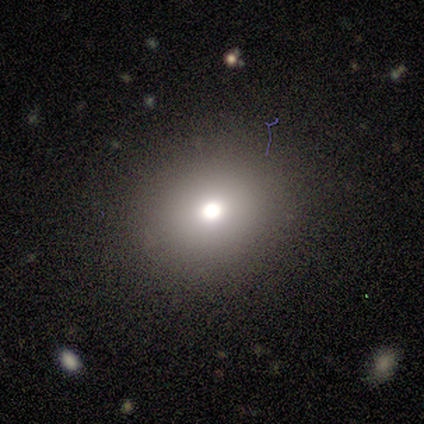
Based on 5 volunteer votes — Volunteers were most divided on "smooth or featured": star or artifact: 60%, smooth: 40%, featured or disk: 0%.